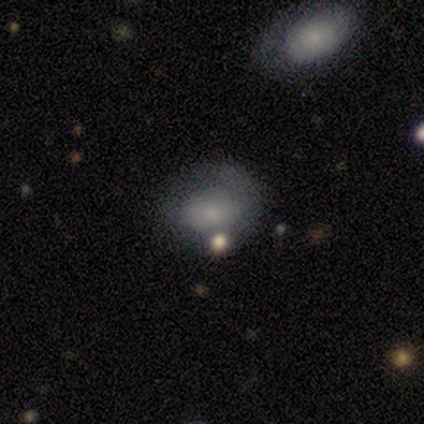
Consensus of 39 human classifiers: Smooth or featured? smooth (67%)
How rounded? round (50%, tied with in between)
Merging? none (47%)